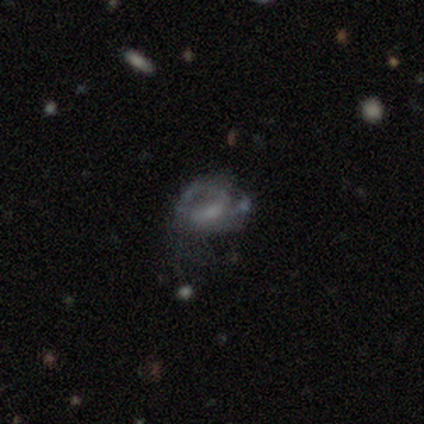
Smooth or featured: smooth — 55% (featured or disk — 45%)
How rounded: in between — 100%
Merging: none — 45% (tied with major disturbance — 45%)